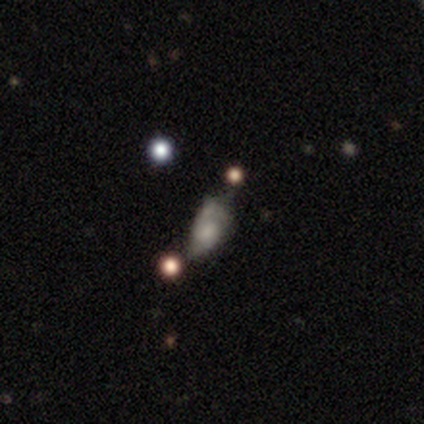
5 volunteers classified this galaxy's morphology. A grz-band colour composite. It shows a featured or disk galaxy (40%, tied with star or artifact) with no bar (100%), 2 (100%) loose (100%) spiral arms (50%, tied with no) and a small central bulge (50%, tied with none). Merging: none (33%, tied with minor disturbance and major disturbance).